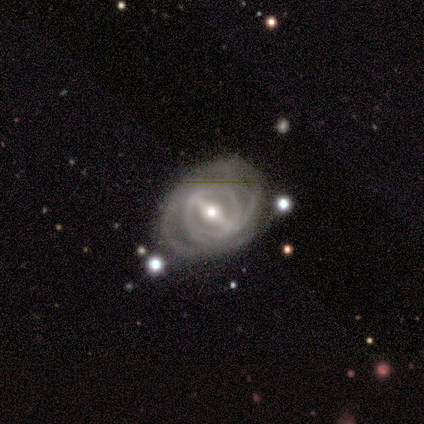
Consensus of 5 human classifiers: Overall: featured or disk (100%). Edge-on disk: no (100%). Bar: strong (80%). Spiral arms: yes (100%). Spiral arm count: can't tell (40%; 2 20%). Spiral winding: tight (80%). Bulge size: moderate (80%). Merging: none (80%).